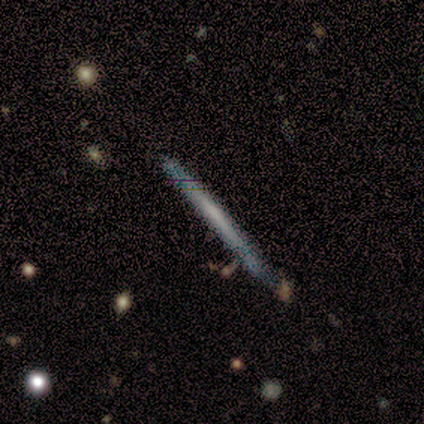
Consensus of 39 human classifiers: Morphology: type=featured or disk (56%); edge-on=yes (95%); edge-on bulge=none (90%); merging=none (79%).